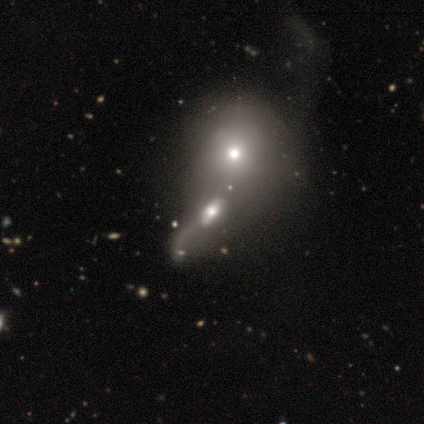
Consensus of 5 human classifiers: Smooth or featured: featured or disk — 100%
Edge-on disk: no — 100%
Bar: weak — 40% (tied with no — 40%)
Spiral arms: no — 60% (yes — 40%)
Bulge size: moderate — 60% (large — 40%)
Merging: merger — 80% (minor disturbance — 20%)